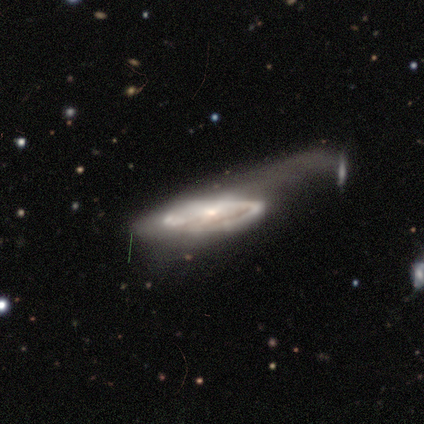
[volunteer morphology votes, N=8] Smooth or featured? 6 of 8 (75%) said featured or disk. Edge-on disk? 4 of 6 (67%) said no. Bar? 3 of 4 (75%) said no. Spiral arms? 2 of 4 (50%, tied with no) said yes. Spiral winding? 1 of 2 (50%, tied with medium) said tight. Spiral arm count? 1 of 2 (50%, tied with can't tell) said 1. Bulge size? 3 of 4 (75%) said small. Merging? 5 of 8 (62%) said major disturbance.